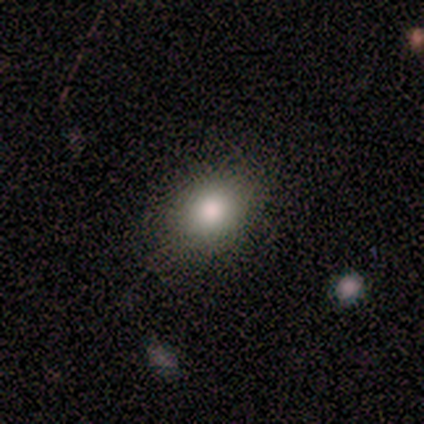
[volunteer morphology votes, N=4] Smooth or featured?
  - smooth: 100% *
  - featured or disk: 0%
  - star or artifact: 0%
How rounded?
  - in between: 100% *
  - round: 0%
  - cigar-shaped: 0%
Merging?
  - none: 75% *
  - major disturbance: 25%
  - minor disturbance: 0%
  - merger: 0%